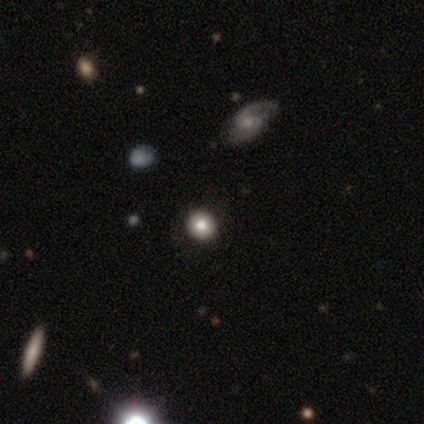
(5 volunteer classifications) Overall: smooth (80%). How rounded: round (100%). Merging: none (75%).